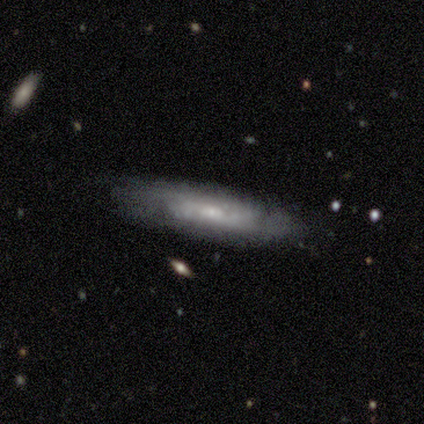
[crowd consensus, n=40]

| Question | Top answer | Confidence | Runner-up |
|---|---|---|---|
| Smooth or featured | featured or disk | 70% | smooth (22%) |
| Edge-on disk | no | 71% | yes (29%) |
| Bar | no | 80% | weak (20%) |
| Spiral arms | yes | 80% | no (20%) |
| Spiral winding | tight | 62% | medium (25%) |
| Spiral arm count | can't tell | 69% | 2 (31%) |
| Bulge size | small | 70% | moderate (20%) |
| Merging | none | 68% | minor disturbance (24%) |